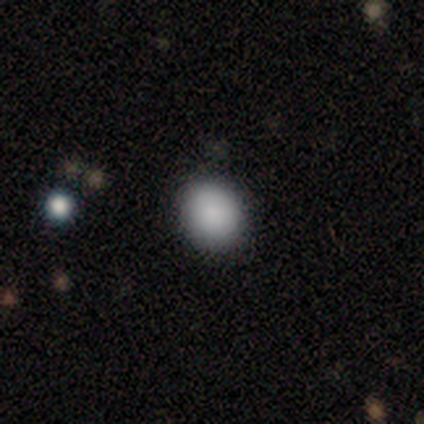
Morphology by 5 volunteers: smooth-or-featured: smooth: 100% | featured or disk: 0% | star or artifact: 0%
  how-rounded: in between: 60% | round: 40% | cigar-shaped: 0%
  merging: none: 80% | minor disturbance: 20% | major disturbance: 0% | merger: 0%